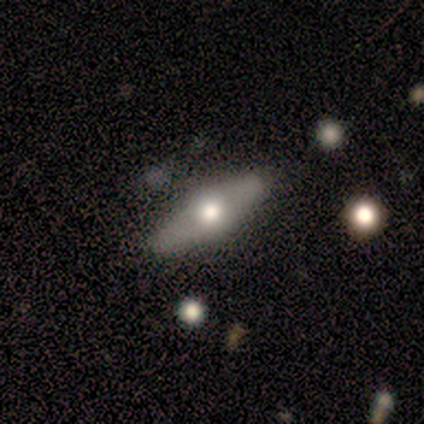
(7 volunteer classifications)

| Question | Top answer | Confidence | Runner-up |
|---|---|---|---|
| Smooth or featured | featured or disk | 71% | smooth (29%) |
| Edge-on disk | yes | 60% | no (40%) |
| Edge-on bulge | rounded | 67% | boxy (33%) |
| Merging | none | 71% | minor disturbance (14%) |